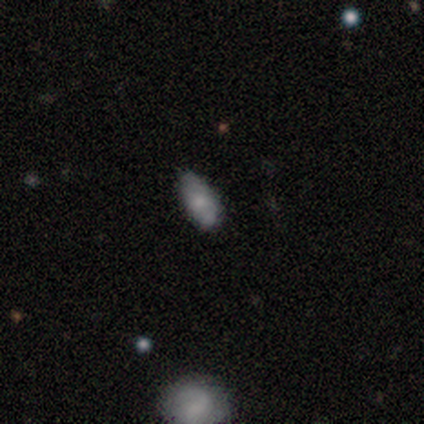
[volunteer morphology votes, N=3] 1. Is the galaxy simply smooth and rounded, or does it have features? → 100% smooth, 0% featured or disk, 0% star or artifact.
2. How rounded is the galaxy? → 100% in between, 0% round, 0% cigar-shaped.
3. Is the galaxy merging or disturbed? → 67% none, 33% minor disturbance, 0% major disturbance, 0% merger.